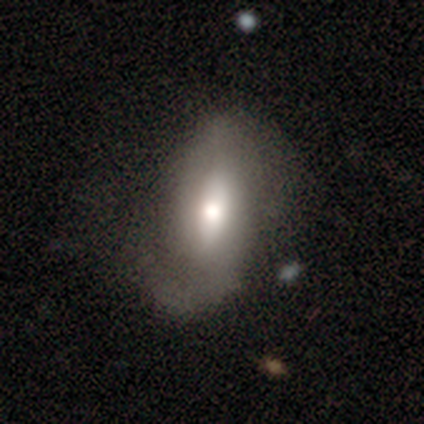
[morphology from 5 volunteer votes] A smooth galaxy with no disk features (100%) that is in between round and cigar-shaped (60%). Merging: none (40%, tied with minor disturbance).